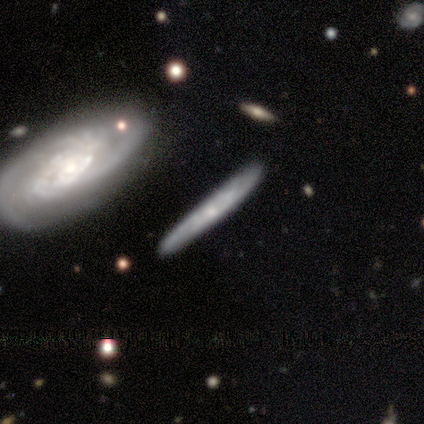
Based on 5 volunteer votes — Overall: smooth (60%; featured or disk 40%). How rounded: cigar-shaped (100%). Merging: none (80%).